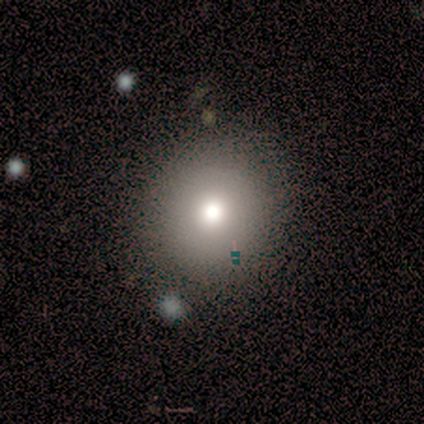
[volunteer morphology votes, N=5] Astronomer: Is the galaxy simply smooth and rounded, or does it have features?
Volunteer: smooth — 60% (runner-up: featured or disk, 40%).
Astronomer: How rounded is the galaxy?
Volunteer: round — 100%.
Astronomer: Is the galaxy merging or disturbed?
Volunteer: none — 80%.